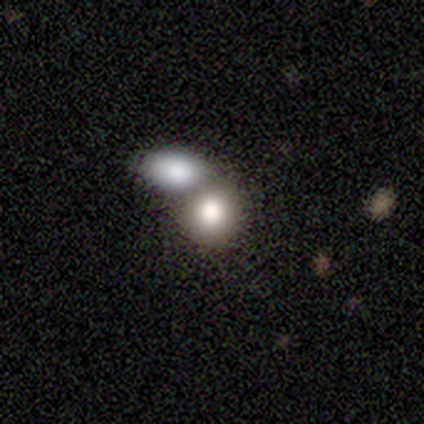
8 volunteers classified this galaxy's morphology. Q: Smooth or featured?
A: smooth (88%); runner-up: featured or disk (12%)
Q: How rounded?
A: in between (57%); runner-up: round (43%)
Q: Merging?
A: none (38%); tied with: merger (38%)